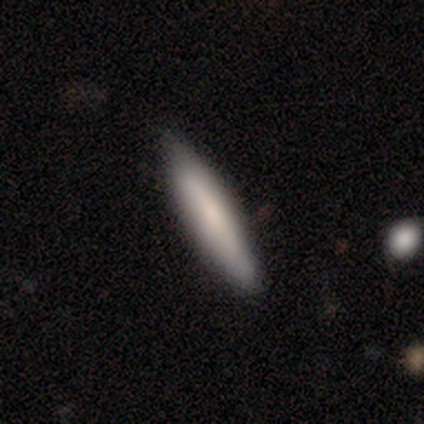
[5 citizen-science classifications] A smooth galaxy with no disk features (100%) that is cigar-shaped (100%). Merging: none (100%).